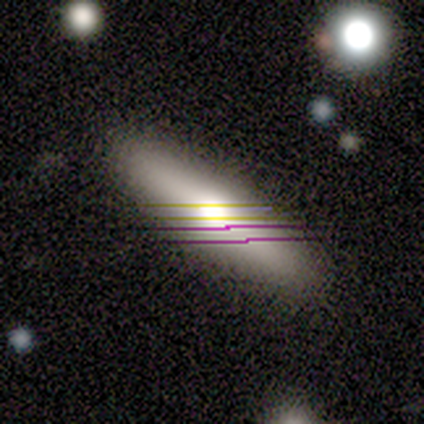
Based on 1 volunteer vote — This appears to be a star or artifact, not a galaxy (100%).